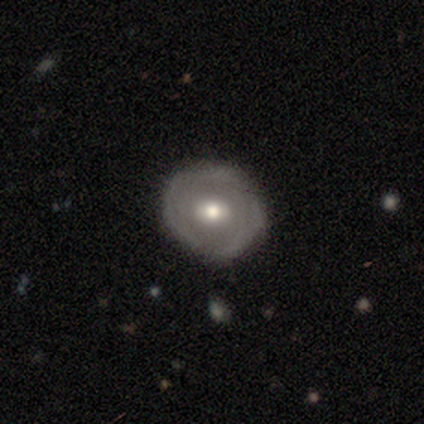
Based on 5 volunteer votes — Smooth or featured? 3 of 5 (60%) said featured or disk. Edge-on disk? 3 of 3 (100%) said no. Bar? 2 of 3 (67%) said no. Spiral arms? 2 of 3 (67%) said no. Bulge size? 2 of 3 (67%) said moderate. Merging? 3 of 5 (60%) said minor disturbance.